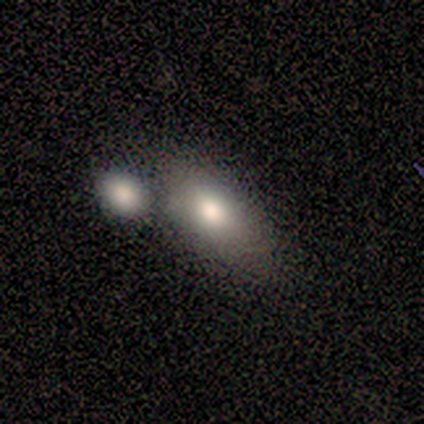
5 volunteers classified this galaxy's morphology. Smooth or featured?
  - smooth: 60% *
  - featured or disk: 20%
  - star or artifact: 20%
How rounded?
  - in between: 100% *
  - round: 0%
  - cigar-shaped: 0%
Merging?
  - none: 50% * (tied)
  - merger: 50% * (tied)
  - minor disturbance: 0%
  - major disturbance: 0%